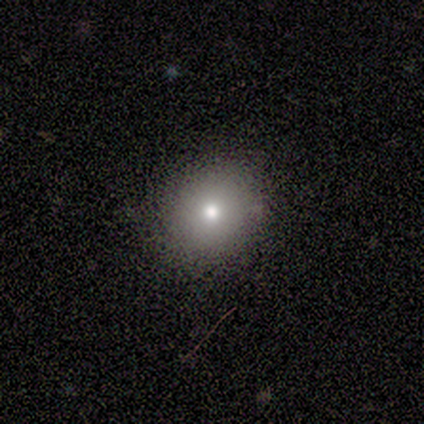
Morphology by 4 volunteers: smooth_or_featured: smooth (p=1.00)
how_rounded: round (p=1.00)
merging: none (p=0.75) [alt: minor disturbance p=0.25]